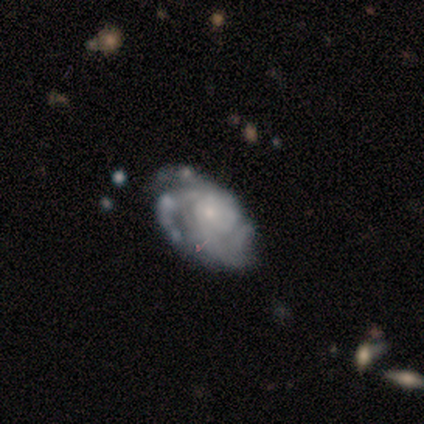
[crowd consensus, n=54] Q: Smooth or featured?
A: featured or disk (87%); runner-up: smooth (13%)
Q: Edge-on disk?
A: no (100%)
Q: Bar?
A: no (85%); runner-up: weak (13%)
Q: Spiral arms?
A: yes (96%); runner-up: no (4%)
Q: Spiral winding?
A: tight (51%); runner-up: medium (40%)
Q: Spiral arm count?
A: 3 (49%); runner-up: can't tell (31%)
Q: Bulge size?
A: small (68%); runner-up: moderate (17%)
Q: Merging?
A: none (59%); runner-up: minor disturbance (26%)